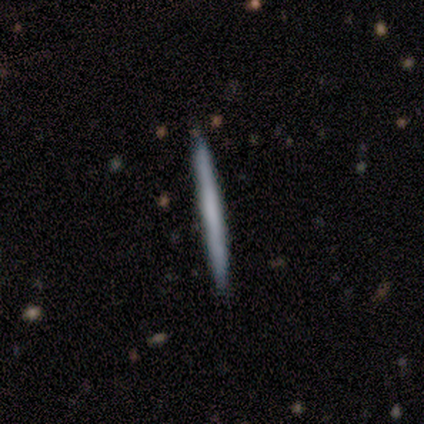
Smooth or featured? 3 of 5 (60%) said featured or disk. Edge-on disk? 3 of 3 (100%) said yes. Edge-on bulge? 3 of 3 (100%) said none. Merging? 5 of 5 (100%) said none.